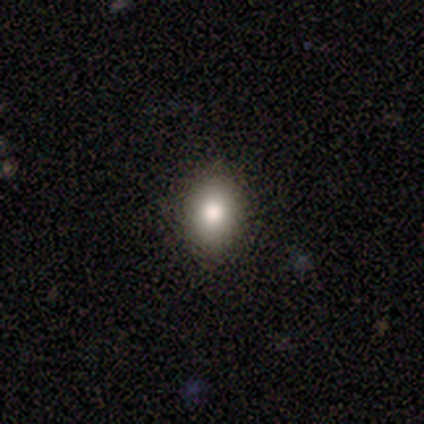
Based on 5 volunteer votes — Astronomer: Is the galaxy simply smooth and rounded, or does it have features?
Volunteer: smooth — 80%.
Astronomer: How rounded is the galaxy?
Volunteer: round — 50%, tied with in between at 50%.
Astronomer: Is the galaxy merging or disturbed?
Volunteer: none — 75%.